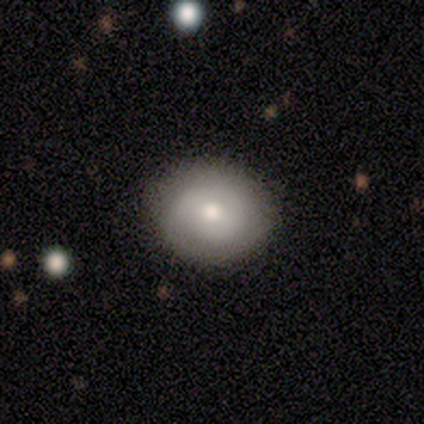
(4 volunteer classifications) Overall: featured or disk (75%). Edge-on disk: no (100%). Bar: no (100%). Spiral arms: yes (67%; no 33%). Spiral arm count: 1 (100%). Spiral winding: tight (100%). Bulge size: moderate (67%; dominant 33%). Merging: none (100%).